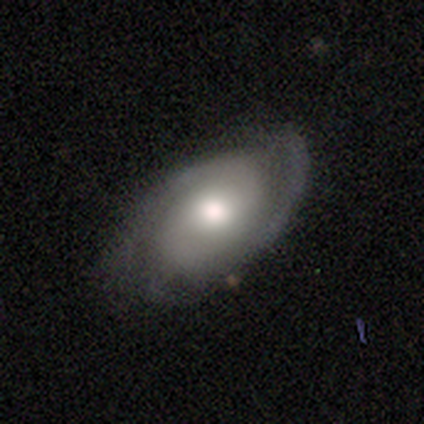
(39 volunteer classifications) Smooth or featured? 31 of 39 (79%) said featured or disk. Edge-on disk? 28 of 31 (90%) said no. Bar? 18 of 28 (64%) said no. Spiral arms? 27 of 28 (96%) said yes. Spiral winding? 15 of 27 (56%) said tight. Spiral arm count? 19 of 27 (70%) said 2. Bulge size? 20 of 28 (71%) said moderate. Merging? 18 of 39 (46%) said none.